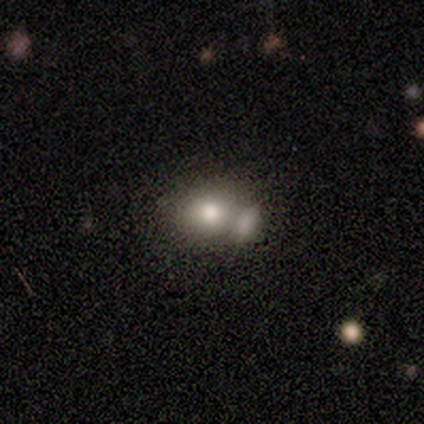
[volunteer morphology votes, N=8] This is likely a smooth galaxy (75%). How rounded: likely round (67%). Merging: likely merger (62%).